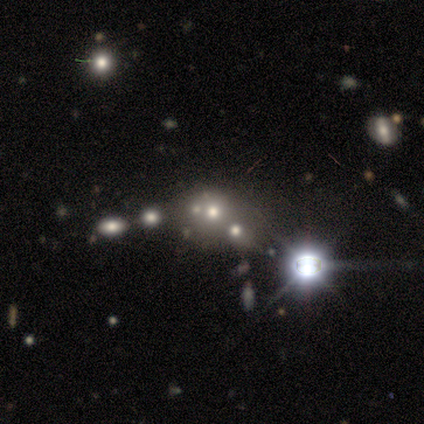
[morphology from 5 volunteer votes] type=star or artifact (60%).